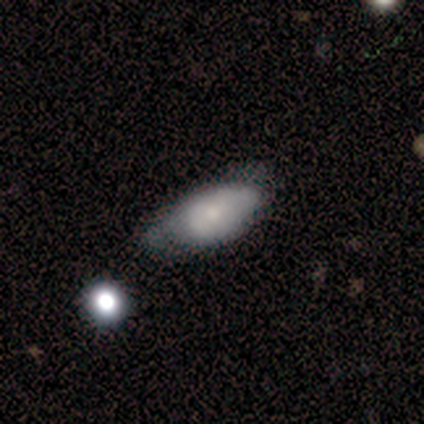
Smooth or featured? smooth (80%)
How rounded? in between (100%)
Merging? minor disturbance (60%)